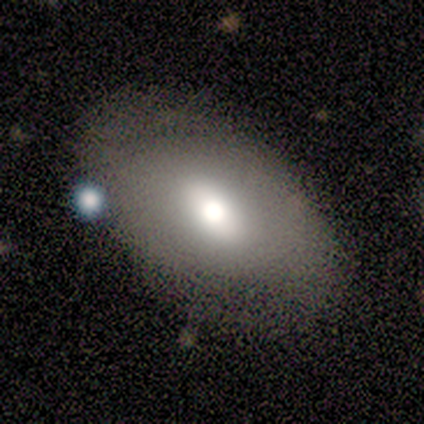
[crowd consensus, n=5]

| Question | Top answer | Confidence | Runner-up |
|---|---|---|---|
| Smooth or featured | smooth | 80% | featured or disk (20%) |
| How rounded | in between | 75% | round (25%) |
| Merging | none | 80% | minor disturbance (20%) |